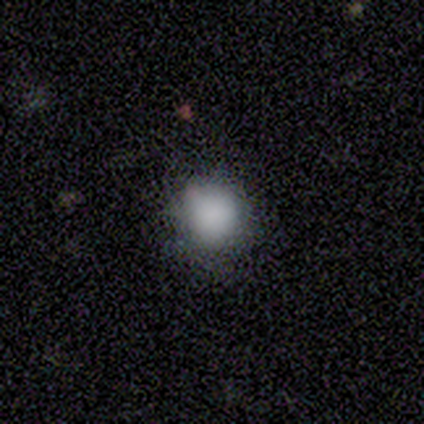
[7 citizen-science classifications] This is clearly a smooth galaxy (100%). How rounded: clearly round (86%). Merging: possibly minor disturbance (57%).